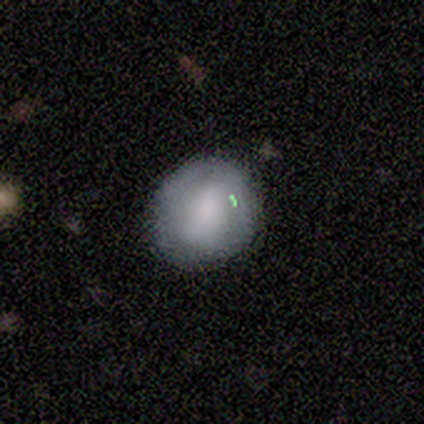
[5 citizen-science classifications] Smooth or featured? smooth (40%, tied with featured or disk)
How rounded? round (100%)
Merging? none (50%, tied with minor disturbance)